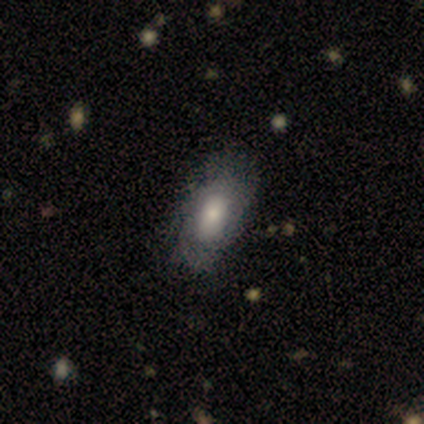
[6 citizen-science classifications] Overall: smooth (83%). How rounded: in between (100%). Merging: none (67%; minor disturbance 33%).